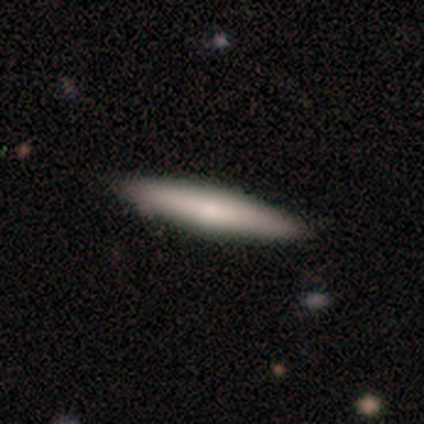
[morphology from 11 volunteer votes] This appears to be a smooth galaxy with no disk features (55%) that is cigar-shaped (67%). Merging: none (91%).